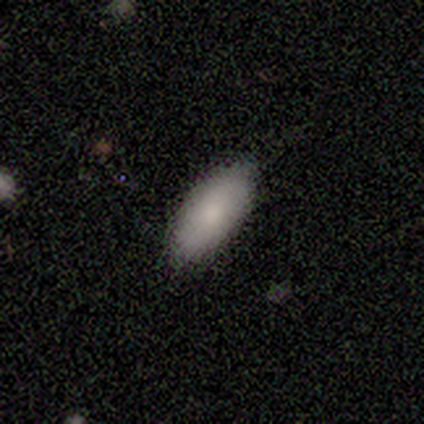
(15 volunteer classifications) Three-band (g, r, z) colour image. It shows a smooth galaxy with no disk features (80%) that is in between round and cigar-shaped (100%). Merging: none (86%).